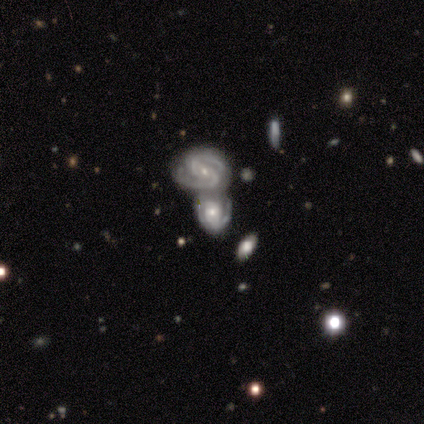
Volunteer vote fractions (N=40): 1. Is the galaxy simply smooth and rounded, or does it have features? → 92% featured or disk, 5% star or artifact, 2% smooth.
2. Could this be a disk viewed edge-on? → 100% no, 0% yes.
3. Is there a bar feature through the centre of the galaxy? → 49% no, 38% weak, 14% strong.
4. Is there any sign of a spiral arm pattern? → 92% yes, 8% no.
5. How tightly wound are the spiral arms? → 62% tight, 32% medium, 6% loose.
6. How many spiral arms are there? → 68% 2, 24% can't tell, 6% 4, 3% 1, 0% 3, 0% more than 4.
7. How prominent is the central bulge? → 54% small, 38% moderate, 8% large, 0% dominant, 0% none.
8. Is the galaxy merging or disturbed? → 71% merger, 8% minor disturbance, 5% none, 3% major disturbance.